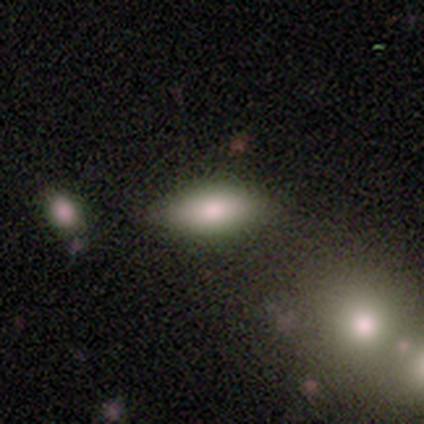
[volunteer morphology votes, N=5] This is clearly a smooth galaxy (80%). How rounded: likely in between (75%). Merging: clearly none (100%).